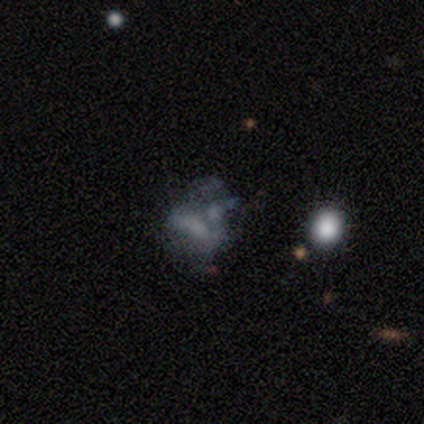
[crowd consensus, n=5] Volunteers were most divided on "merging": none: 60%, minor disturbance: 20%, major disturbance: 20%, merger: 0%. More confident: edge-on disk — no (100%); spiral arms — no (100%); smooth or featured — featured or disk (80%); bar — no (75%); bulge size — none (75%).